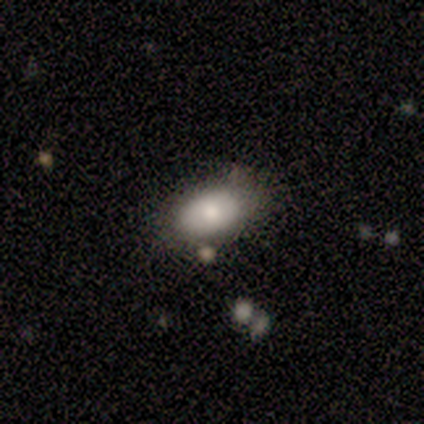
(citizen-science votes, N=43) This is clearly a smooth galaxy (88%). How rounded: clearly in between (89%). Merging: clearly none (81%).